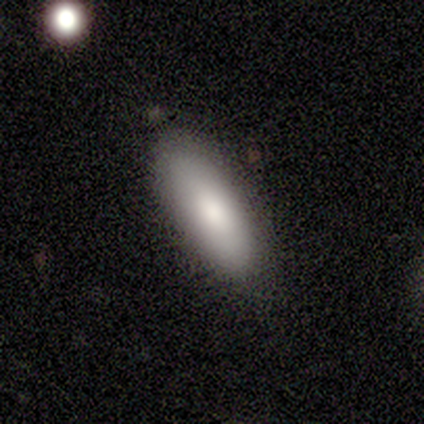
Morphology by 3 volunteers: Volunteers were most divided on "merging" (2-way tie): none: 50%, minor disturbance: 50%, major disturbance: 0%, merger: 0%. More confident: how rounded — cigar-shaped (100%); smooth or featured — smooth (67%).